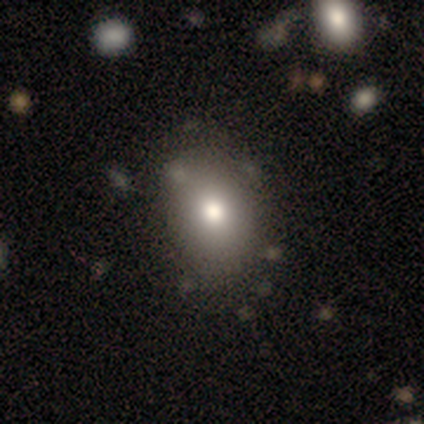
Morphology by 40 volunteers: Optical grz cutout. It shows a smooth galaxy with no disk features (72%) that is in between round and cigar-shaped (55%). Merging: none (69%).